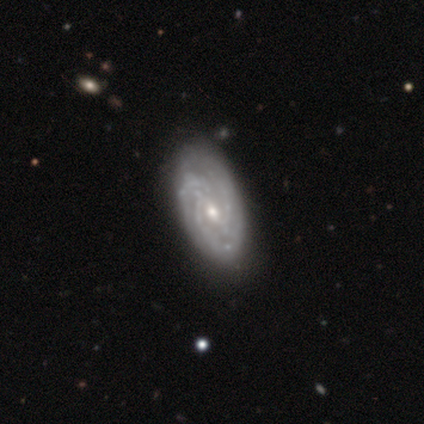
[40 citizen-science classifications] featured or disk 90%, smooth 8%, star or artifact 2%. Down the decision tree: edge-on disk — no (100%); bar — weak (64%); spiral arms — yes (100%); spiral arm count — 3 (50%); spiral winding — tight (58%); bulge size — moderate (64%); merging — none (67%).